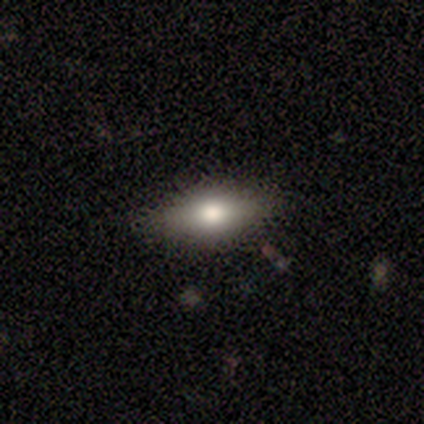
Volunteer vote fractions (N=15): A smooth galaxy with no disk features (67%) that is in between round and cigar-shaped (60%).

Vote fractions:
- Smooth or featured? smooth: 67% / featured or disk: 27% / star or artifact: 7%
- How rounded? in between: 60% / cigar-shaped: 40% / round: 0%
- Merging? none: 86% / minor disturbance: 14% / major disturbance: 0% / merger: 0%